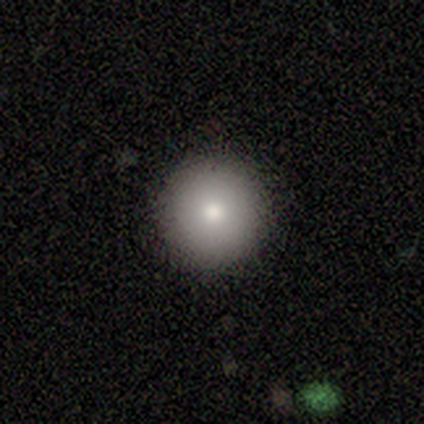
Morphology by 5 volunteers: This is marginally a smooth galaxy (40%, tied with star or artifact). How rounded: clearly round (100%). Merging: clearly none (100%).